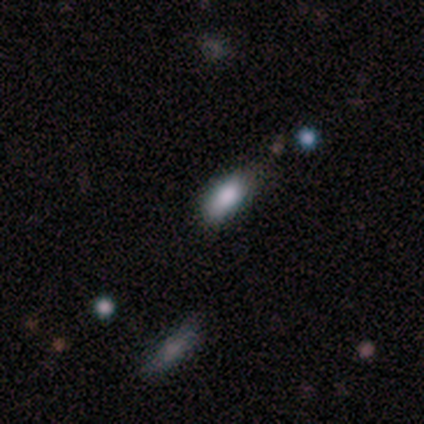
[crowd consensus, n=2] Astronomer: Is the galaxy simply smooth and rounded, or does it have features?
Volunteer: smooth — 100%.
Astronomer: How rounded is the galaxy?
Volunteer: in between — 100%.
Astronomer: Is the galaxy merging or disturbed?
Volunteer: none — 100%.